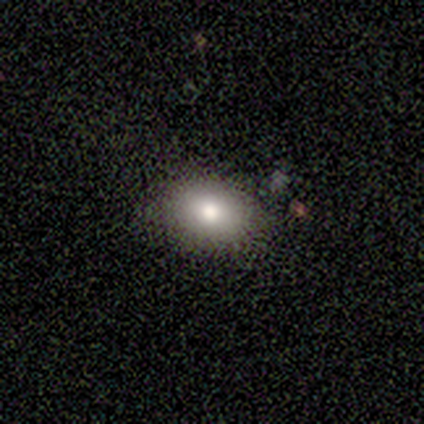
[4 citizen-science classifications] Smooth or featured? 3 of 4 (75%) said smooth. How rounded? 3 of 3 (100%) said in between. Merging? 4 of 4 (100%) said none.